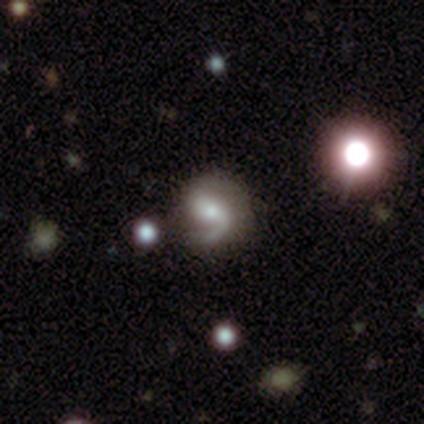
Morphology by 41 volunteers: Overall: featured or disk (83%). Edge-on disk: no (100%). Bar: weak (50%; no 44%). Spiral arms: yes (97%). Spiral arm count: 2 (67%; 1 33%). Spiral winding: medium (48%; loose 39%). Bulge size: moderate (53%; small 38%). Merging: none (64%).